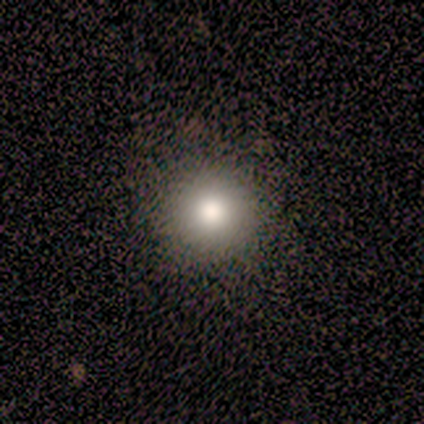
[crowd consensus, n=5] This appears to be a smooth galaxy with no disk features (80%) that is round (100%). Merging: none (100%).